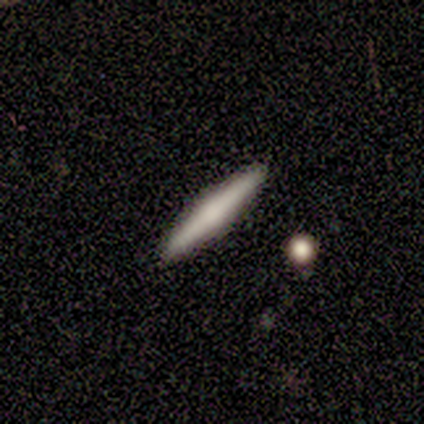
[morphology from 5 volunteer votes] This appears to be a smooth galaxy with no disk features (80%) that is cigar-shaped (100%). Merging: none (100%).